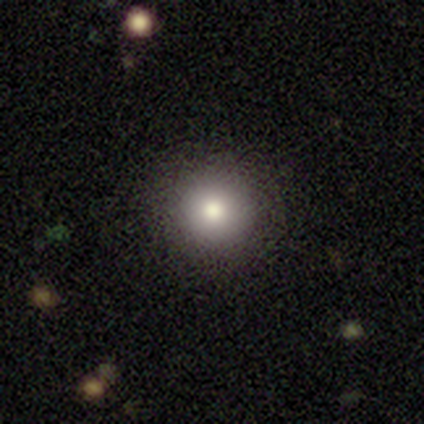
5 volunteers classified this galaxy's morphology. Overall: smooth (80%). How rounded: round (100%). Merging: none (100%).